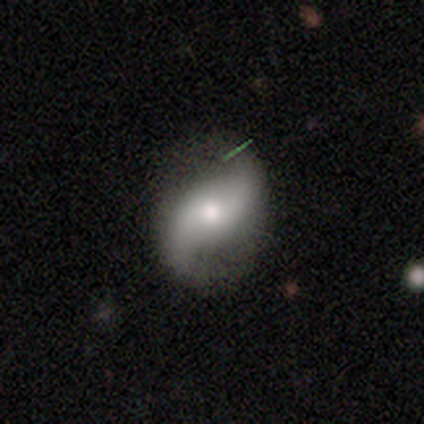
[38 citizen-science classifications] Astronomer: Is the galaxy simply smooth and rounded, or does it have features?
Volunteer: featured or disk — 82%.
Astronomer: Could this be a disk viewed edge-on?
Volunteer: no — 97%.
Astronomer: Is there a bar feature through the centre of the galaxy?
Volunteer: no — 63%.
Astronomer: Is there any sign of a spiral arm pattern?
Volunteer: yes — 97%.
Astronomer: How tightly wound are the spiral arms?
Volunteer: loose — 86%.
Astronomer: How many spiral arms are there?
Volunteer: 2 — 100%.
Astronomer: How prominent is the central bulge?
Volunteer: moderate — 50% (runner-up: small, 30%).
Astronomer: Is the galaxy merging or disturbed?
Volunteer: none — 81%.